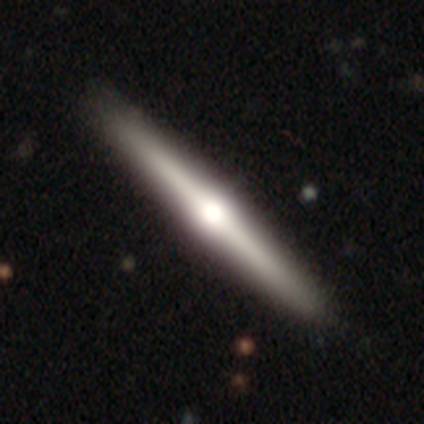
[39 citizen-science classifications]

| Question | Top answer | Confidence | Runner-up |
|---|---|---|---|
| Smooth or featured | featured or disk | 82% | smooth (15%) |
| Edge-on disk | yes | 100% | — |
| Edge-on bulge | rounded | 97% | boxy (3%) |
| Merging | none | 66% | — |